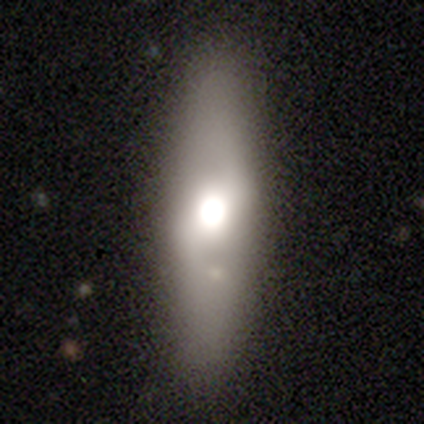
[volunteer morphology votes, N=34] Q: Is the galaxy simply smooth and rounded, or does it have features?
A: smooth — 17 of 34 (50%).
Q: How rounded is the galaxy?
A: cigar-shaped — 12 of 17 (71%).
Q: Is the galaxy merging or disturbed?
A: none — 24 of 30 (80%).